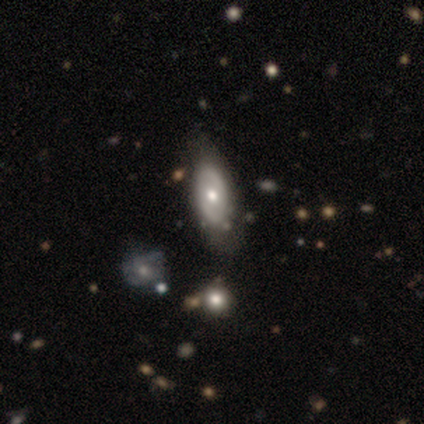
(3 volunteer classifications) featured or disk 100%, smooth 0%, star or artifact 0%. Down the decision tree: edge-on disk — no (100%); bar — weak (67%); spiral arms — no (67%); bulge size — moderate (67%); merging — none (100%).